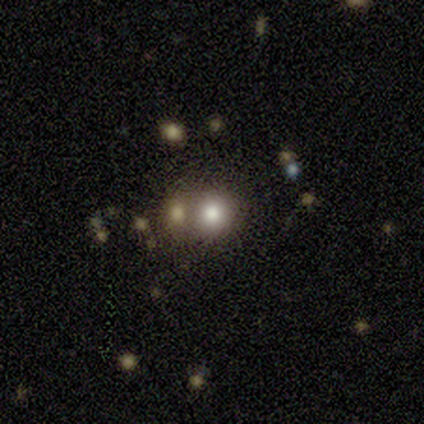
Morphology: type=smooth (100%); roundness=round (100%); merging=none (100%).